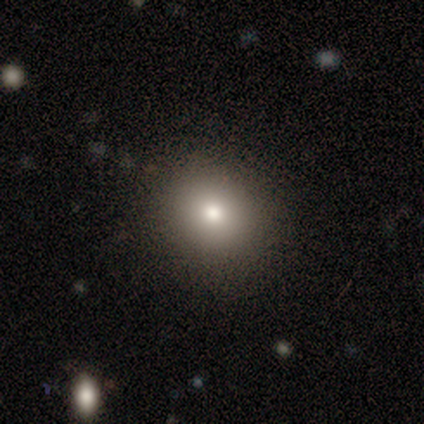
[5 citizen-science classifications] Morphology: type=smooth (60%); roundness=round (67%); merging=none (100%).